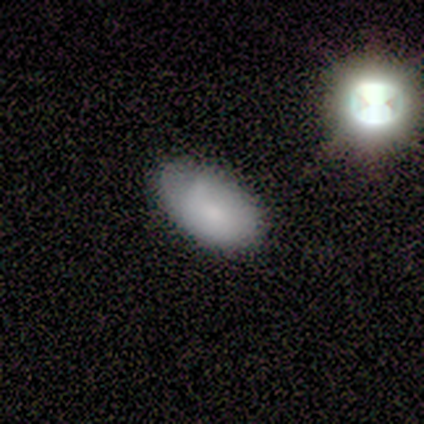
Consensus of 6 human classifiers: Smooth or featured? 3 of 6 (50%) said smooth. How rounded? 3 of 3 (100%) said in between. Merging? 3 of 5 (60%) said none.